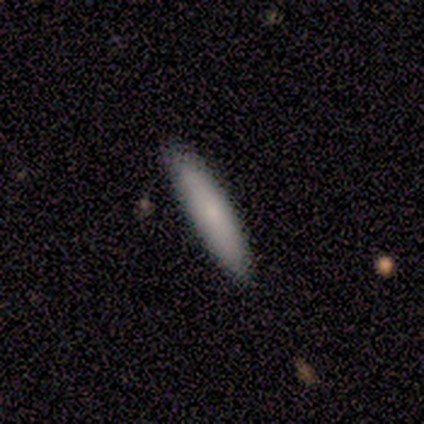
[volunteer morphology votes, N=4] Smooth or featured? smooth (75%)
How rounded? cigar-shaped (100%)
Merging? none (75%)